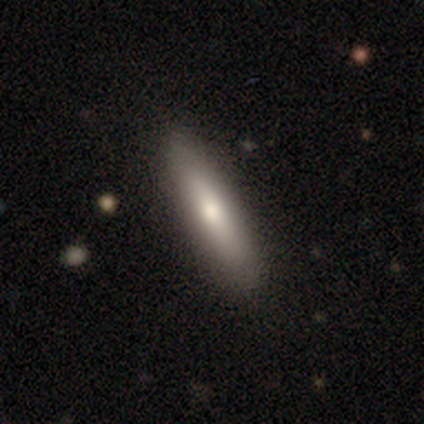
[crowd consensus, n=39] Smooth or featured? 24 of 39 (62%) said smooth. How rounded? 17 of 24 (71%) said cigar-shaped. Merging? 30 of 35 (86%) said none.